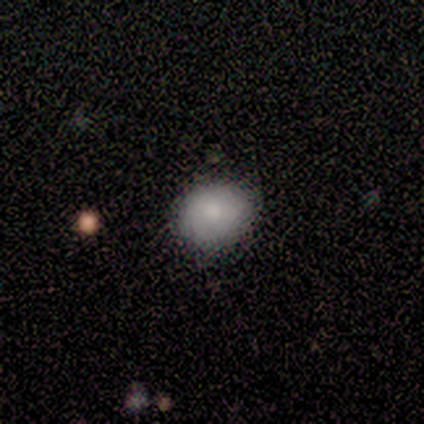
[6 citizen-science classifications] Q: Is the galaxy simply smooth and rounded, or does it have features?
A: smooth — 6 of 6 (100%).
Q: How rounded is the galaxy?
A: in between — 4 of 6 (67%).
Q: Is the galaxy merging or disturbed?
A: none — 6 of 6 (100%).